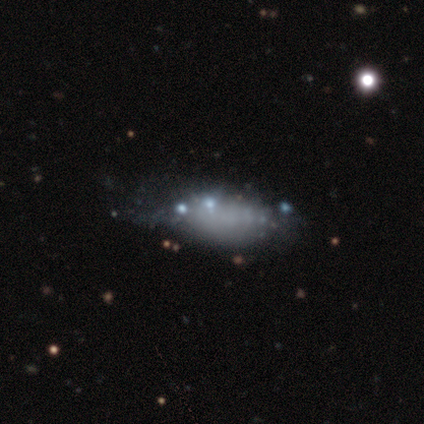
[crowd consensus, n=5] Morphology: type=smooth (40%, tied with featured or disk); roundness=in between (50%, tied with cigar-shaped); merging=minor disturbance (75%).